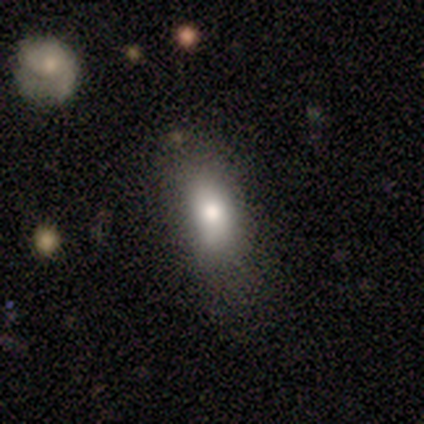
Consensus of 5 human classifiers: smooth_or_featured: smooth (p=1.00)
how_rounded: in between (p=1.00)
merging: major disturbance (p=0.60) [alt: none p=0.40]